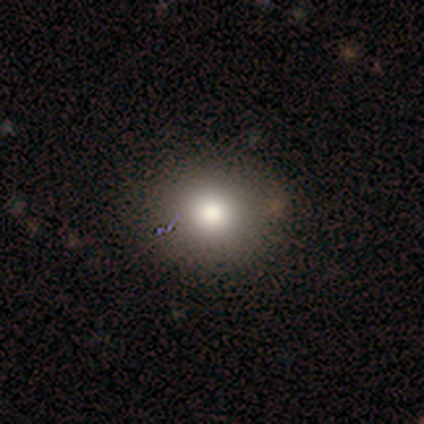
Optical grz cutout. It shows a featured or disk galaxy (50%) with no bar (100%), no spiral arms (100%) and a large central bulge (50%, tied with moderate). Merging: none (100%).